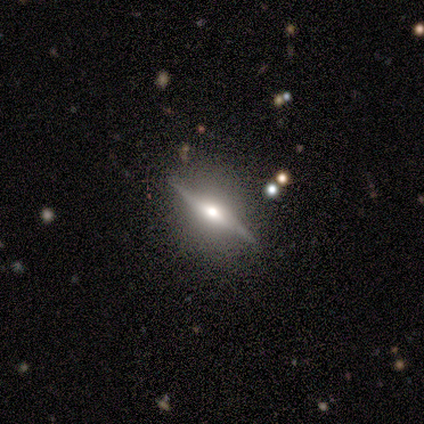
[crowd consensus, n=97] Q: Smooth or featured?
A: featured or disk (89%); runner-up: smooth (7%)
Q: Edge-on disk?
A: yes (90%); runner-up: no (10%)
Q: Edge-on bulge?
A: rounded (91%); runner-up: boxy (5%)
Q: Merging?
A: none (82%); runner-up: minor disturbance (12%)